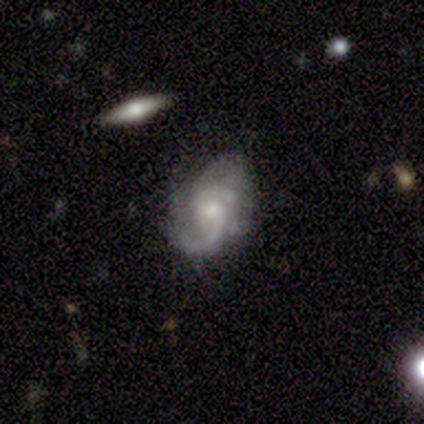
A featured or disk galaxy (100%) with a weak bar (80%), 2 (60%) loose (60%) spiral arms (100%) and a moderate central bulge (100%).

Vote fractions:
- Smooth or featured? featured or disk: 100% / smooth: 0% / star or artifact: 0%
- Edge-on disk? no: 100% / yes: 0%
- Bar? weak: 80% / no: 20% / strong: 0%
- Spiral arms? yes: 100% / no: 0%
- Spiral winding? loose: 60% / tight: 20% / medium: 20%
- Spiral arm count? 2: 60% / 1: 20% / 3: 20% / 4: 0% / more than 4: 0% / can't tell: 0%
- Bulge size? moderate: 100% / dominant: 0% / large: 0% / small: 0% / none: 0%
- Merging? minor disturbance: 60% / none: 40% / major disturbance: 0% / merger: 0%